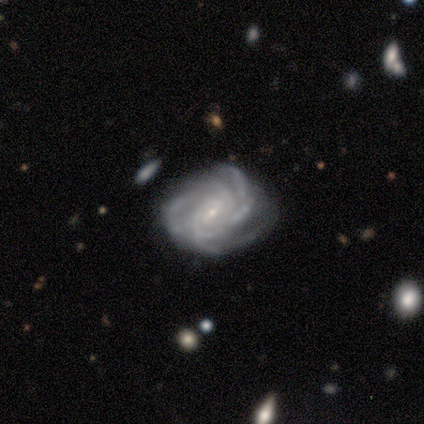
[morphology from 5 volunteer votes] A featured or disk galaxy (100%) with a weak bar (40%, tied with no), 3 (40%, tied with can't tell) tight (80%) spiral arms (100%) and a small central bulge (60%).

Vote fractions:
- Smooth or featured? featured or disk: 100% / smooth: 0% / star or artifact: 0%
- Edge-on disk? no: 100% / yes: 0%
- Bar? weak: 40% (tied) / no: 40% (tied) / strong: 20%
- Spiral arms? yes: 100% / no: 0%
- Spiral winding? tight: 80% / loose: 20% / medium: 0%
- Spiral arm count? 3: 40% (tied) / can't tell: 40% (tied) / 4: 20% / 1: 0% / 2: 0% / more than 4: 0%
- Bulge size? small: 60% / moderate: 20% / none: 20% / dominant: 0% / large: 0%
- Merging? none: 80% / minor disturbance: 20% / major disturbance: 0% / merger: 0%